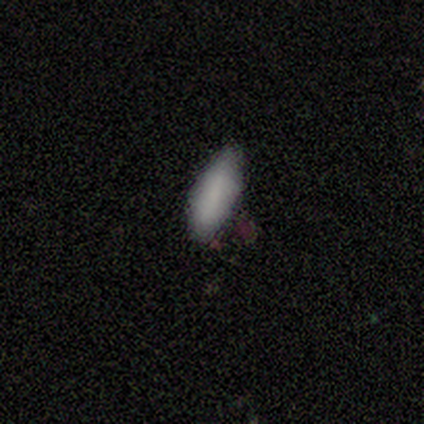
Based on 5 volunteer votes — Overall: smooth (100%). How rounded: in between (60%; cigar-shaped 40%). Merging: none (80%).